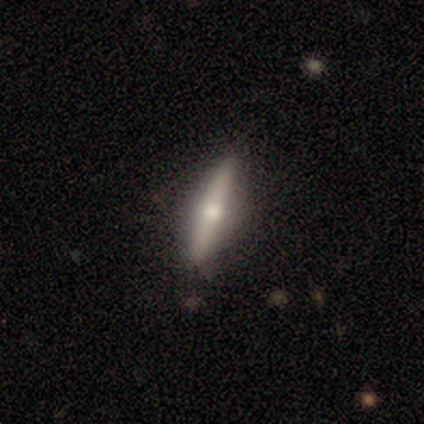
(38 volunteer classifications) Smooth or featured? 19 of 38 (50%) said smooth. How rounded? 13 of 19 (68%) said cigar-shaped. Merging? 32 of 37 (86%) said none.